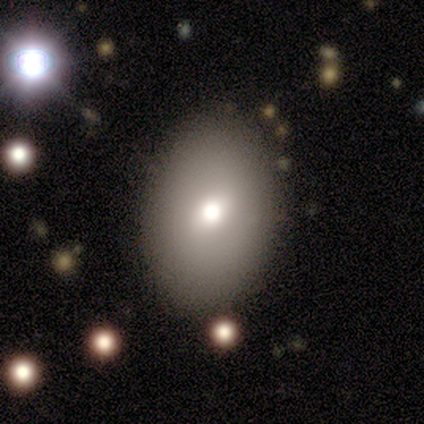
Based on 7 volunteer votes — Smooth or featured? 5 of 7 (71%) said smooth. How rounded? 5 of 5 (100%) said in between. Merging? 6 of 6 (100%) said none.